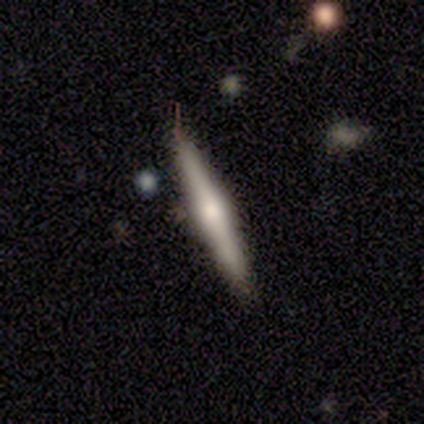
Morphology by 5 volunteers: A featured or disk galaxy (60%) viewed edge-on (100%) with a rounded central bulge (100%). Merging: none (100%).